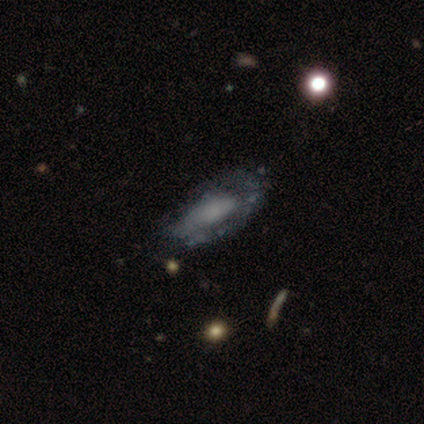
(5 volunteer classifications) smooth_or_featured: featured or disk (p=0.60) [alt: smooth p=0.40]
disk_edge_on: no (p=0.67) [alt: yes p=0.33]
bar: no (p=1.00)
has_spiral_arms: yes (p=0.50) [tied with: no p=0.50]
spiral_winding: medium (p=1.00)
spiral_arm_count: can't tell (p=1.00)
bulge_size: small (p=0.50) [tied with: none p=0.50]
merging: none (p=0.60) [alt: minor disturbance p=0.40]